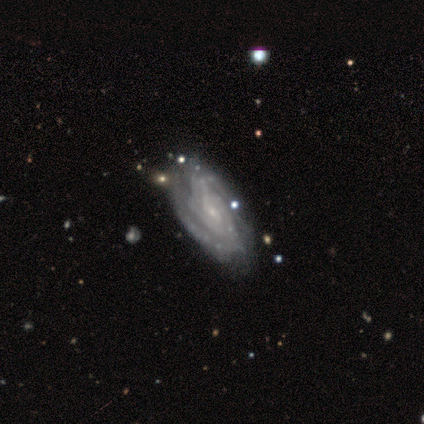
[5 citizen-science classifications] A featured or disk galaxy (80%) with no bar (100%), 2 (50%) tight (75%) spiral arms (100%) and a small central bulge (100%).

Vote fractions:
- Smooth or featured? featured or disk: 80% / smooth: 20% / star or artifact: 0%
- Edge-on disk? no: 100% / yes: 0%
- Bar? no: 100% / strong: 0% / weak: 0%
- Spiral arms? yes: 100% / no: 0%
- Spiral winding? tight: 75% / medium: 25% / loose: 0%
- Spiral arm count? 2: 50% / 4: 25% / can't tell: 25% / 1: 0% / 3: 0% / more than 4: 0%
- Bulge size? small: 100% / dominant: 0% / large: 0% / moderate: 0% / none: 0%
- Merging? none: 80% / merger: 20% / minor disturbance: 0% / major disturbance: 0%